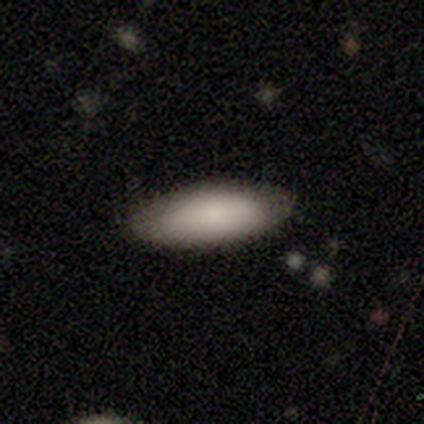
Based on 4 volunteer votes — This appears to be a smooth galaxy with no disk features (100%) that is in between round and cigar-shaped (100%). Merging: none (100%).